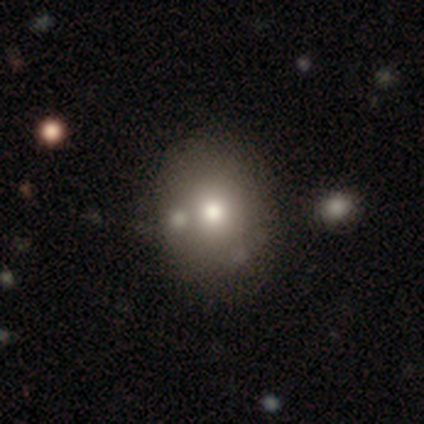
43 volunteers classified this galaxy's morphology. Smooth or featured? 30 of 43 (70%) said smooth. How rounded? 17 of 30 (57%) said round. Merging? 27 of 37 (73%) said none.